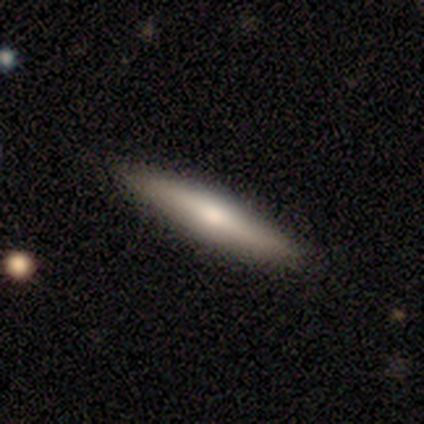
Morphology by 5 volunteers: smooth_or_featured: smooth (p=0.60) [alt: featured or disk p=0.40]
how_rounded: cigar-shaped (p=0.67) [alt: in between p=0.33]
merging: none (p=0.80) [alt: minor disturbance p=0.20]